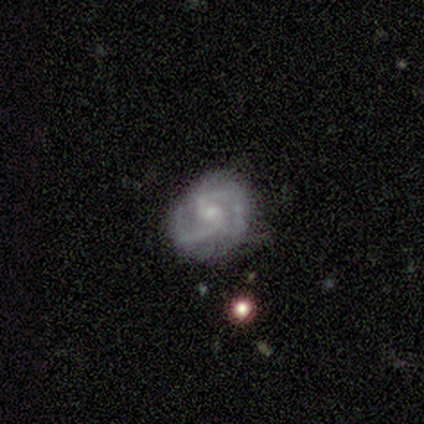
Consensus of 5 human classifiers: smooth-or-featured: featured or disk: 80% | smooth: 20% | star or artifact: 0%
  disk-edge-on: no: 100% | yes: 0%
    bar: no: 50% | strong: 25% | weak: 25%
    has-spiral-arms: yes: 100% | no: 0%
      spiral-winding: medium: 75% | tight: 25% | loose: 0%
      spiral-arm-count: 2: 50% | 3: 25% | can't tell: 25% | 1: 0% | 4: 0% | more than 4: 0%
    bulge-size: small: 50% | moderate: 25% | none: 25% | dominant: 0% | large: 0%
  merging: none: 60% | minor disturbance: 40% | major disturbance: 0% | merger: 0%